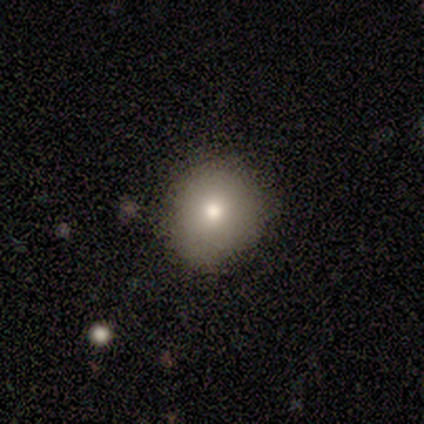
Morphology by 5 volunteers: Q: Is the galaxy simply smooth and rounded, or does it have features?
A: smooth — 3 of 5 (60%).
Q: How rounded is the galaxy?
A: round — 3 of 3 (100%).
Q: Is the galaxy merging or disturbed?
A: none — 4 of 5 (80%).